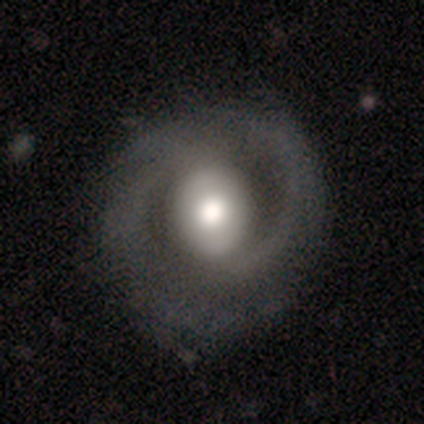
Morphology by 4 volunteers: Smooth or featured: featured or disk — 75% (smooth — 25%)
Edge-on disk: no — 67% (yes — 33%)
Bar: strong — 50% (tied with no — 50%)
Spiral arms: yes — 100%
Spiral winding: medium — 100%
Spiral arm count: 2 — 50% (tied with 4 — 50%)
Bulge size: large — 50% (tied with moderate — 50%)
Merging: none — 75% (major disturbance — 25%)